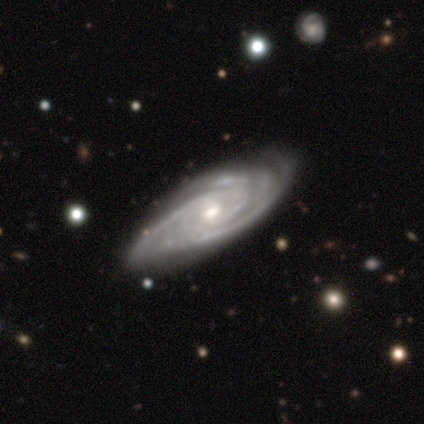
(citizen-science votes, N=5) Volunteers were most divided on "spiral winding" (2-way tie): tight: 50%, medium: 50%, loose: 0%; "spiral arm count" (2-way tie): 3: 50%, can't tell: 50%, 1: 0%, 2: 0%, 4: 0%, more than 4: 0%. More confident: smooth or featured — featured or disk (100%); bar — no (100%); spiral arms — yes (100%); merging — none (100%); edge-on disk — no (80%); bulge size — moderate (75%).